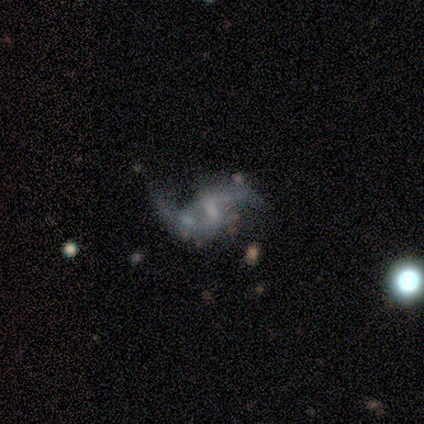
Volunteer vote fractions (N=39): Smooth or featured: featured or disk — 85% (star or artifact — 10%)
Edge-on disk: no — 100%
Bar: weak — 61% (no — 21%)
Spiral arms: yes — 88% (no — 12%)
Spiral winding: loose — 90% (medium — 7%)
Spiral arm count: 2 — 90% (1 — 10%)
Bulge size: none — 52% (small — 27%)
Merging: none — 26% (minor disturbance — 17%)